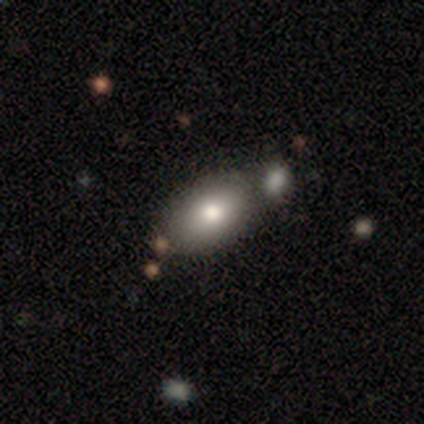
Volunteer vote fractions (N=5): smooth 80%, featured or disk 20%, star or artifact 0%. Down the decision tree: how rounded — in between (100%); merging — none (60%).